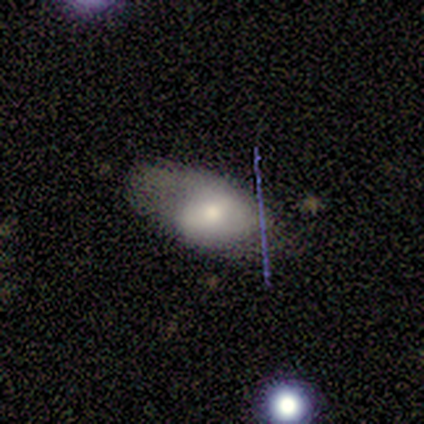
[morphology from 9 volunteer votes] Smooth or featured?
  - smooth: 44% *
  - star or artifact: 33%
  - featured or disk: 22%
How rounded?
  - in between: 100% *
  - round: 0%
  - cigar-shaped: 0%
Merging?
  - none: 67% *
  - minor disturbance: 17%
  - major disturbance: 17%
  - merger: 0%